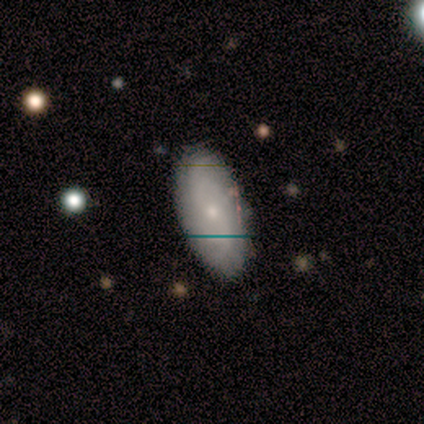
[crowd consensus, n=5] Overall: smooth (60%; featured or disk 40%). How rounded: in between (100%). Merging: none (80%).